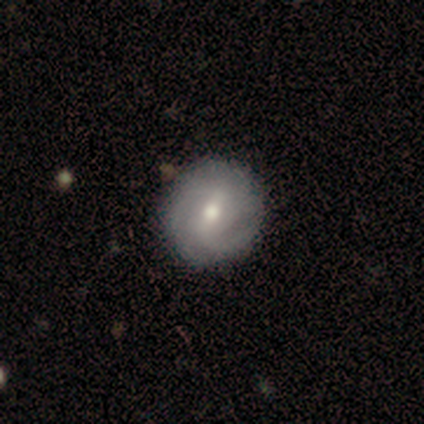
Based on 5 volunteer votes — A featured or disk galaxy (80%) with a weak bar (75%), 2 (100%) tight (50%, tied with medium) spiral arms (100%) and a moderate central bulge (75%).

Vote fractions:
- Smooth or featured? featured or disk: 80% / smooth: 20% / star or artifact: 0%
- Edge-on disk? no: 100% / yes: 0%
- Bar? weak: 75% / no: 25% / strong: 0%
- Spiral arms? yes: 100% / no: 0%
- Spiral winding? tight: 50% (tied) / medium: 50% (tied) / loose: 0%
- Spiral arm count? 2: 100% / 1: 0% / 3: 0% / 4: 0% / more than 4: 0% / can't tell: 0%
- Bulge size? moderate: 75% / small: 25% / dominant: 0% / large: 0% / none: 0%
- Merging? none: 100% / minor disturbance: 0% / major disturbance: 0% / merger: 0%